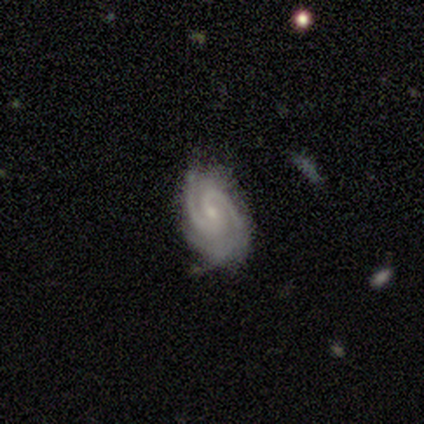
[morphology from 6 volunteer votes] Smooth or featured?
  - featured or disk: 100% *
  - smooth: 0%
  - star or artifact: 0%
Edge-on disk?
  - no: 100% *
  - yes: 0%
Bar?
  - weak: 83% *
  - no: 17%
  - strong: 0%
Spiral arms?
  - yes: 100% *
  - no: 0%
Spiral winding?
  - tight: 67% *
  - medium: 33%
  - loose: 0%
Spiral arm count?
  - 2: 67% *
  - 3: 17%
  - can't tell: 17%
  - 1: 0%
  - 4: 0%
  - more than 4: 0%
Bulge size?
  - small: 83% *
  - moderate: 17%
  - dominant: 0%
  - large: 0%
  - none: 0%
Merging?
  - none: 50% *
  - major disturbance: 33%
  - minor disturbance: 17%
  - merger: 0%